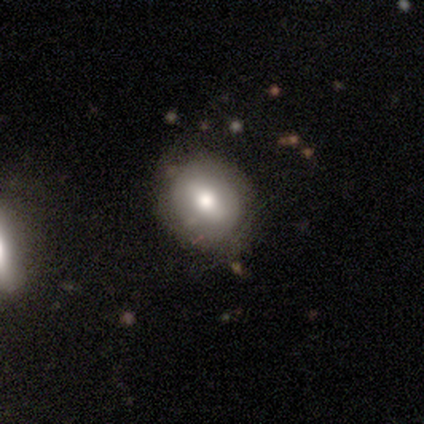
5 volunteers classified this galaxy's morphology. type=smooth (60%); roundness=round (67%); merging=none (67%).